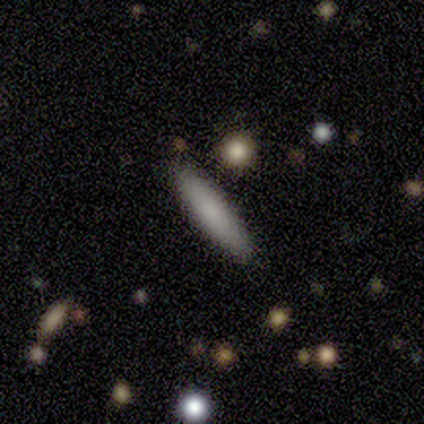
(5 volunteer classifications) Morphology: type=smooth (80%); roundness=cigar-shaped (100%); merging=none (100%).